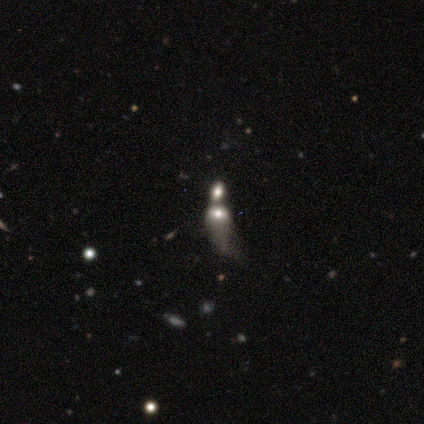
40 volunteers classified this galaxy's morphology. This appears to be a smooth galaxy with no disk features (50%) that is in between round and cigar-shaped (80%). Merging: merger (81%).